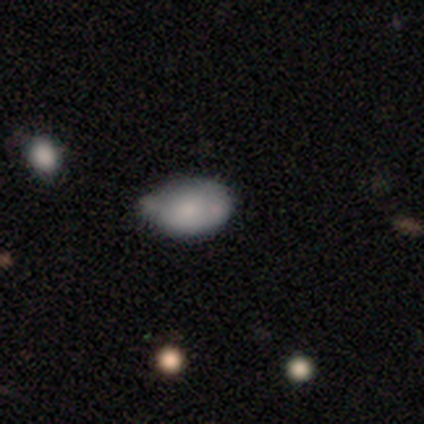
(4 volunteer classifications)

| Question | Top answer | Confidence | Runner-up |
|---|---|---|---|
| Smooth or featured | smooth | 75% | featured or disk (25%) |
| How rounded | in between | 100% | — |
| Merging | none | 75% | minor disturbance (25%) |